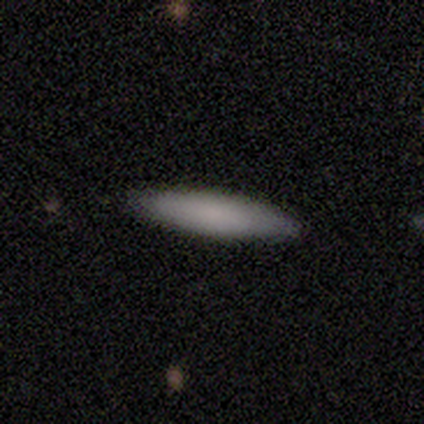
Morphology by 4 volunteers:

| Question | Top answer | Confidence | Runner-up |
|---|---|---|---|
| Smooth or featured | smooth | 75% | featured or disk (25%) |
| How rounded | cigar-shaped | 100% | — |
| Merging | none | 100% | — |